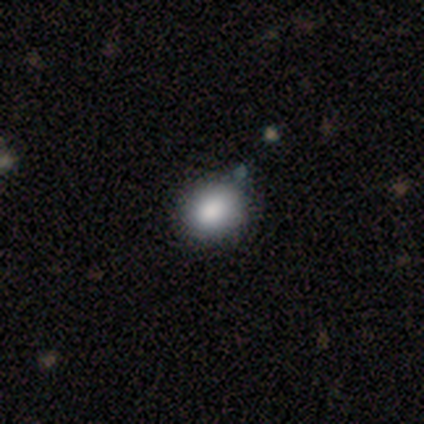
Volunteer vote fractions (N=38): Overall: smooth (87%). How rounded: round (79%). Merging: none (91%).